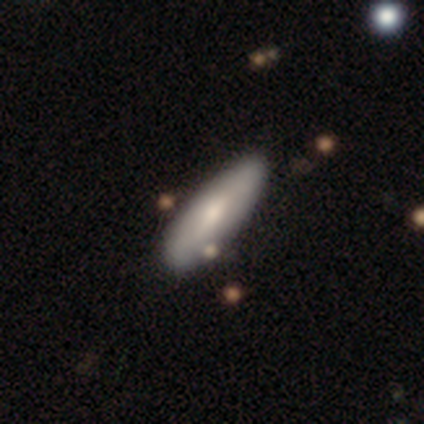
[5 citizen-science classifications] smooth 80%, featured or disk 20%, star or artifact 0%. Down the decision tree: how rounded — in between (75%); merging — none (80%).